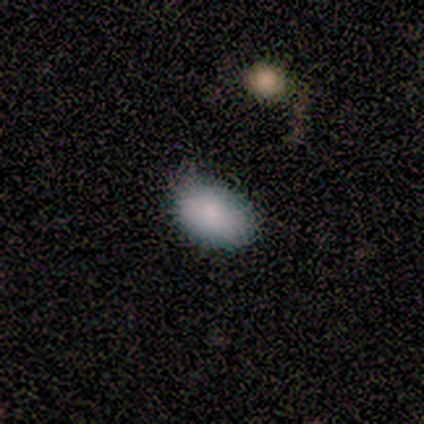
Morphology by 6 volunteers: smooth-or-featured: smooth: 100% | featured or disk: 0% | star or artifact: 0%
  how-rounded: in between: 100% | round: 0% | cigar-shaped: 0%
  merging: none: 67% | minor disturbance: 17% | major disturbance: 17% | merger: 0%